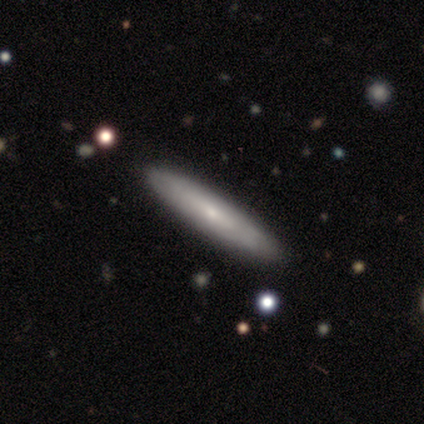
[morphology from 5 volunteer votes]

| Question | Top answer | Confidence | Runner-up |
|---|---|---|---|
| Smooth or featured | smooth | 60% | featured or disk (20%) |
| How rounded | cigar-shaped | 100% | — |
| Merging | none | 100% | — |